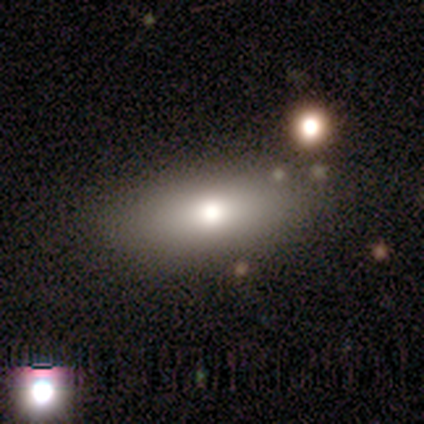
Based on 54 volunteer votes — Overall: smooth (69%; featured or disk 30%). How rounded: in between (92%). Merging: none (83%).